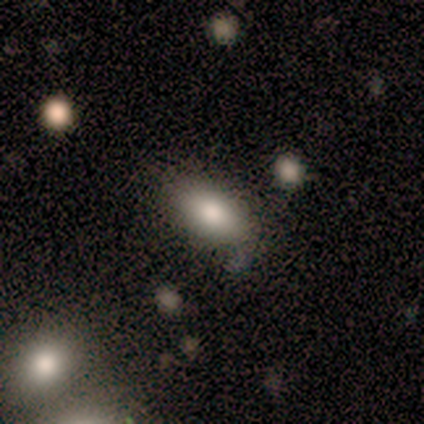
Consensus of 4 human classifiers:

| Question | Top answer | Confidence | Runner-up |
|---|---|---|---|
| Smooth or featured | smooth | 100% | — |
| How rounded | in between | 100% | — |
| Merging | none | 75% | minor disturbance (25%) |